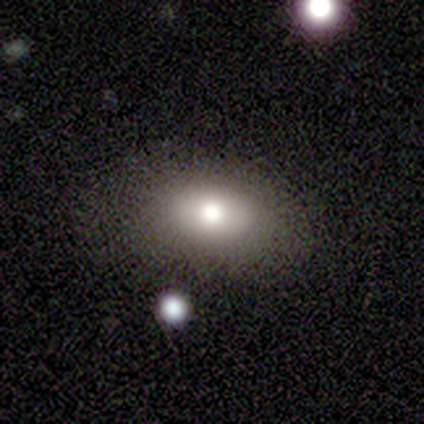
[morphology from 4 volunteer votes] Volunteers were most divided on "merging": minor disturbance: 50%, none: 25%, major disturbance: 25%, merger: 0%. More confident: smooth or featured — smooth (75%); how rounded — in between (67%).